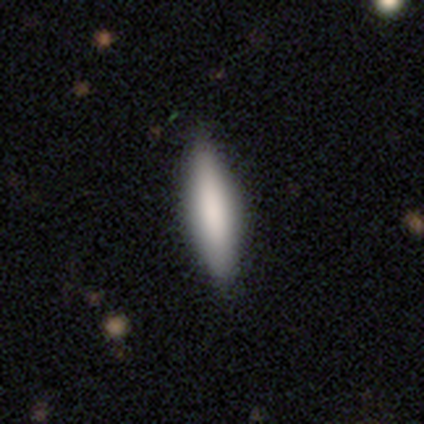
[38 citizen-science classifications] This appears to be a smooth galaxy with no disk features (74%) that is in between round and cigar-shaped (50%, tied with cigar-shaped). Merging: none (45%).